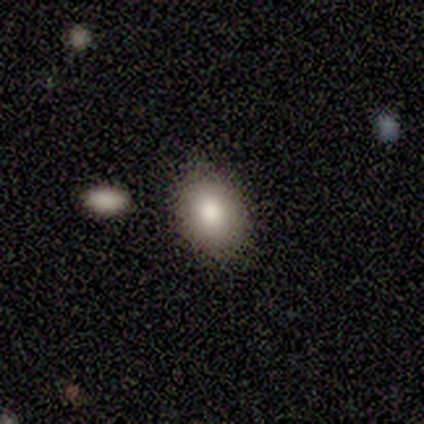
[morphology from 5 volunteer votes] Smooth or featured? 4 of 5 (80%) said smooth. How rounded? 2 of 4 (50%, tied with in between) said round. Merging? 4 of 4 (100%) said none.